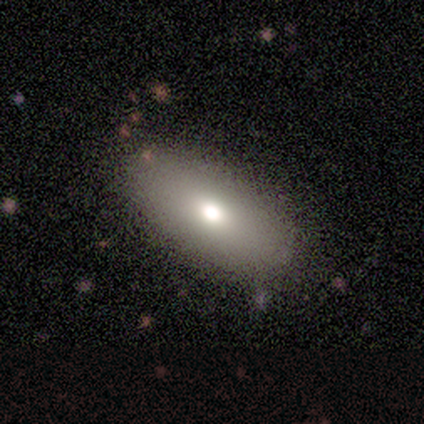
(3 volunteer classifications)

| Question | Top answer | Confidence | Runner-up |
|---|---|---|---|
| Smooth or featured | smooth | 67% | featured or disk (33%) |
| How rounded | in between | 100% | — |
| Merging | none | 100% | — |